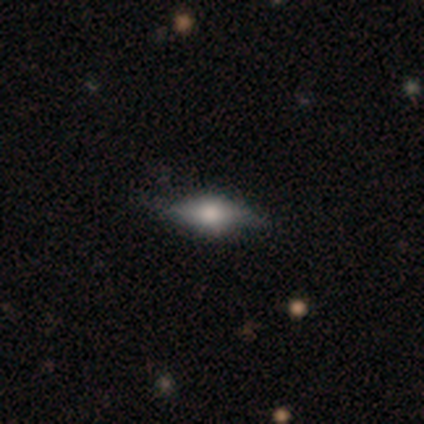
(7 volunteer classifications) A smooth galaxy with no disk features (57%) that is in between round and cigar-shaped (75%). Merging: none (86%).